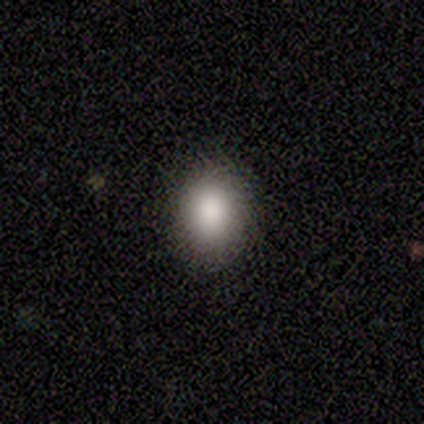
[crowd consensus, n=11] Overall: smooth (91%). How rounded: round (50%, tied with in between). Merging: none (80%).